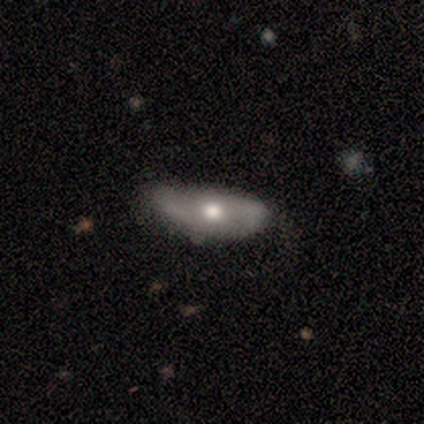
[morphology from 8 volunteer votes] Smooth or featured? 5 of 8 (62%) said featured or disk. Edge-on disk? 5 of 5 (100%) said no. Bar? 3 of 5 (60%) said no. Spiral arms? 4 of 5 (80%) said yes. Spiral winding? 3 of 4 (75%) said loose. Spiral arm count? 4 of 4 (100%) said 2. Bulge size? 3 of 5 (60%) said moderate. Merging? 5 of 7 (71%) said none.